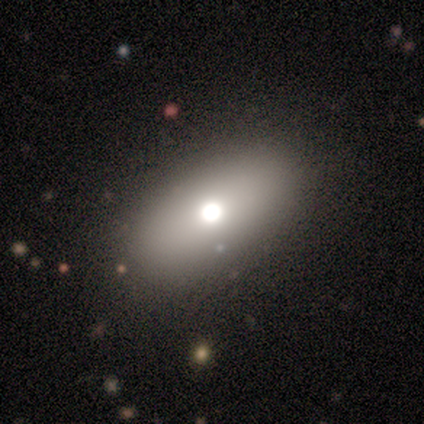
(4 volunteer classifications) smooth 50%, featured or disk 25%, star or artifact 25%. Down the decision tree: how rounded — round (50%, tied with in between); merging — none (100%).